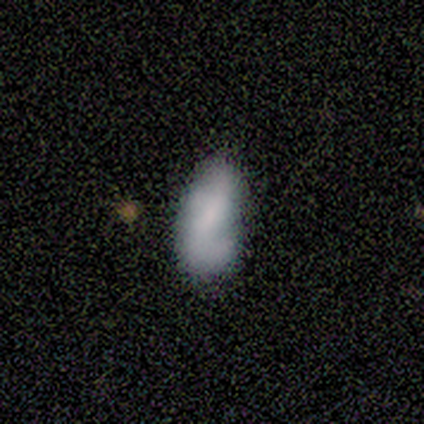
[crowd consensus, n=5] Smooth or featured? smooth (100%)
How rounded? in between (100%)
Merging? none (60%)